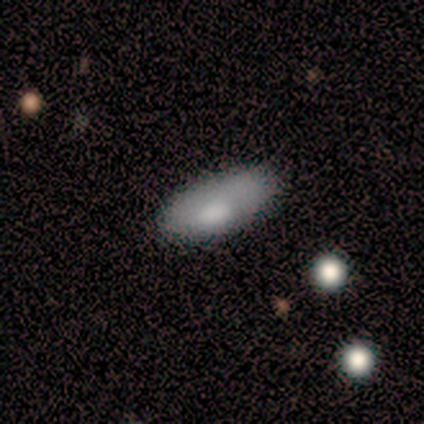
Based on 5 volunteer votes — Volunteers were most divided on "merging": none: 60%, minor disturbance: 20%, major disturbance: 20%, merger: 0%. More confident: how rounded — in between (100%); smooth or featured — smooth (80%).